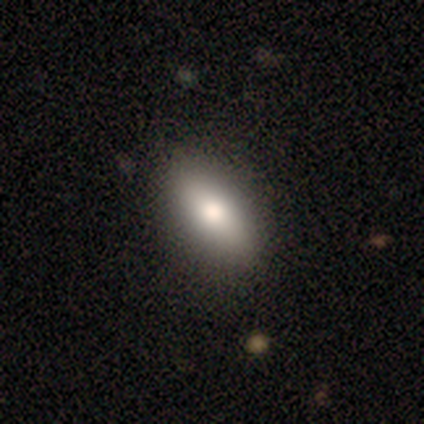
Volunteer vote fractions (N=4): Smooth or featured? 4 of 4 (100%) said smooth. How rounded? 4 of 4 (100%) said in between. Merging? 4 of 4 (100%) said none.